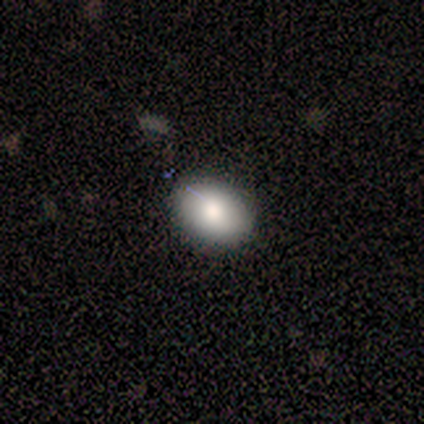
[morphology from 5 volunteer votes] A smooth galaxy with no disk features (80%) that is in between round and cigar-shaped (100%).

Vote fractions:
- Smooth or featured? smooth: 80% / featured or disk: 20% / star or artifact: 0%
- How rounded? in between: 100% / round: 0% / cigar-shaped: 0%
- Merging? none: 80% / minor disturbance: 20% / major disturbance: 0% / merger: 0%